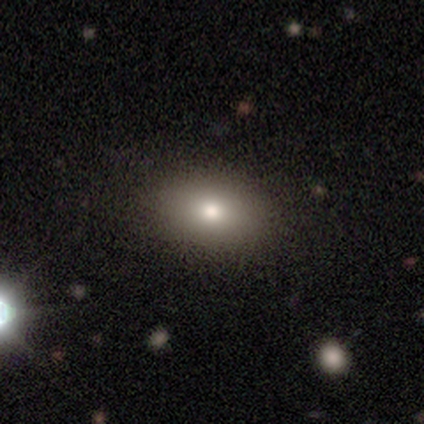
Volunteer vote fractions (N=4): smooth-or-featured: smooth: 75% | star or artifact: 25% | featured or disk: 0%
  how-rounded: in between: 100% | round: 0% | cigar-shaped: 0%
  merging: none: 100% | minor disturbance: 0% | major disturbance: 0% | merger: 0%